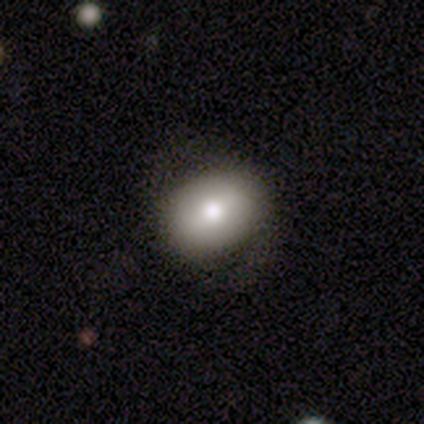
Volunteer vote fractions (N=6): Smooth or featured?
  - featured or disk: 67% *
  - smooth: 33%
  - star or artifact: 0%
Edge-on disk?
  - no: 100% *
  - yes: 0%
Bar?
  - weak: 50% *
  - strong: 25%
  - no: 25%
Spiral arms?
  - no: 75% *
  - yes: 25%
Bulge size?
  - large: 50% * (tied)
  - moderate: 50% * (tied)
  - dominant: 0%
  - small: 0%
  - none: 0%
Merging?
  - none: 33% * (tied)
  - minor disturbance: 33% * (tied)
  - major disturbance: 33% * (tied)
  - merger: 0%